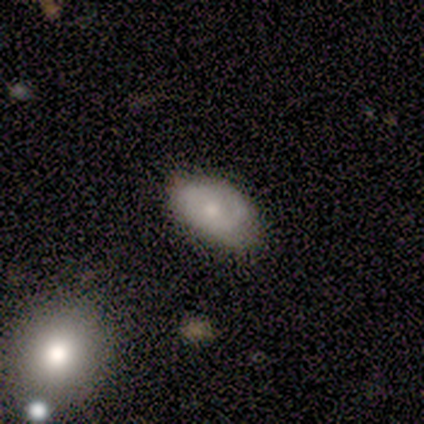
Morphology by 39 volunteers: This is possibly a smooth galaxy (49%). How rounded: clearly in between (89%). Merging: possibly none (56%).